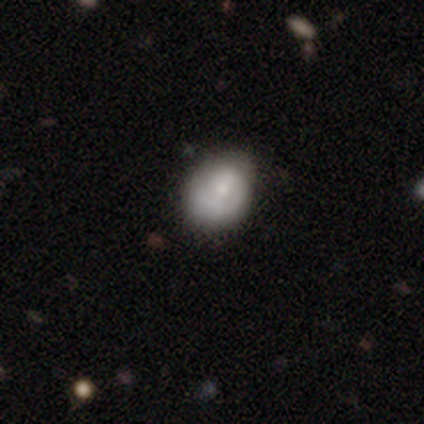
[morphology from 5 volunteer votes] Smooth or featured?
  - featured or disk: 60% *
  - smooth: 40%
  - star or artifact: 0%
Edge-on disk?
  - no: 100% *
  - yes: 0%
Bar?
  - no: 67% *
  - weak: 33%
  - strong: 0%
Spiral arms?
  - yes: 67% *
  - no: 33%
Spiral winding?
  - tight: 50% * (tied)
  - medium: 50% * (tied)
  - loose: 0%
Spiral arm count?
  - 1: 50% * (tied)
  - 2: 50% * (tied)
  - 3: 0%
  - 4: 0%
  - more than 4: 0%
  - can't tell: 0%
Bulge size?
  - moderate: 67% *
  - small: 33%
  - dominant: 0%
  - large: 0%
  - none: 0%
Merging?
  - none: 40% * (tied)
  - minor disturbance: 40% * (tied)
  - merger: 20%
  - major disturbance: 0%